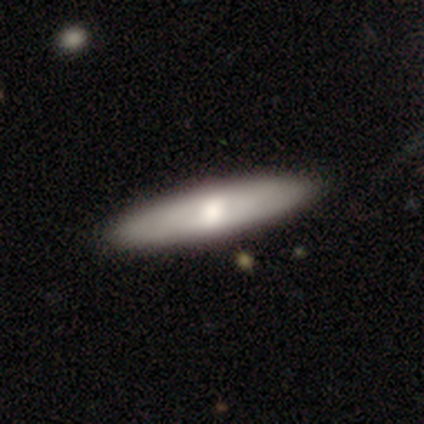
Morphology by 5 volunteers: Smooth or featured? 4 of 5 (80%) said smooth. How rounded? 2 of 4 (50%, tied with cigar-shaped) said in between. Merging? 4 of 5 (80%) said none.